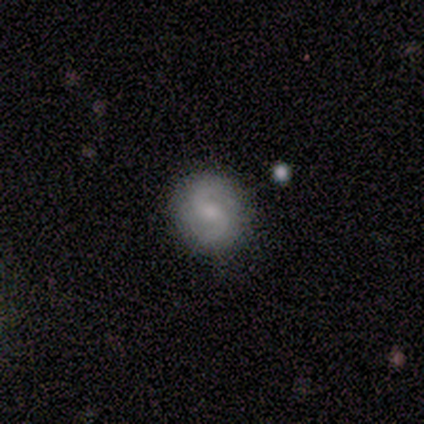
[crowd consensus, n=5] Smooth or featured? featured or disk (100%)
Edge-on disk? no (80%)
Bar? weak (75%)
Spiral arms? yes (75%)
Spiral winding? medium (67%)
Spiral arm count? 2 (100%)
Bulge size? moderate (50%, tied with small)
Merging? none (80%)